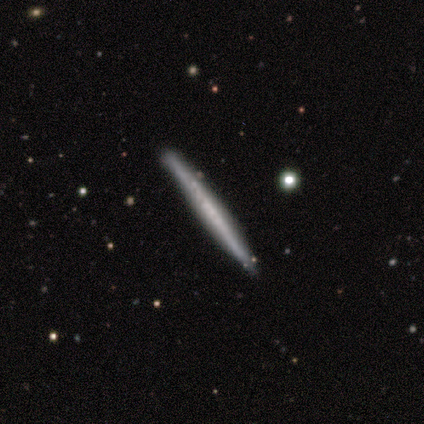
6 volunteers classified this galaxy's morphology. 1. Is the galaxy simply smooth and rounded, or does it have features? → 67% featured or disk, 33% smooth, 0% star or artifact.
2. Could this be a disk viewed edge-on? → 100% yes, 0% no.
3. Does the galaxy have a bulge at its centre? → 100% none, 0% boxy, 0% rounded.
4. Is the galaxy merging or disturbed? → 83% none, 17% minor disturbance, 0% major disturbance, 0% merger.